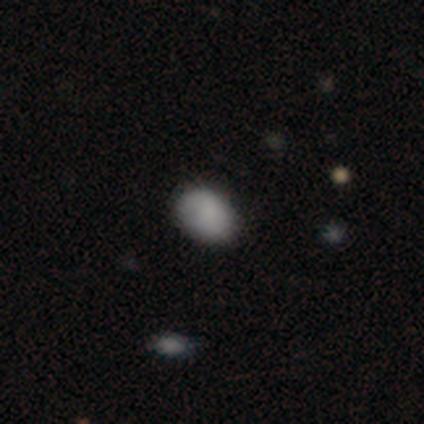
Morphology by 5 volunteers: type=smooth (100%); roundness=in between (80%); merging=none (100%).